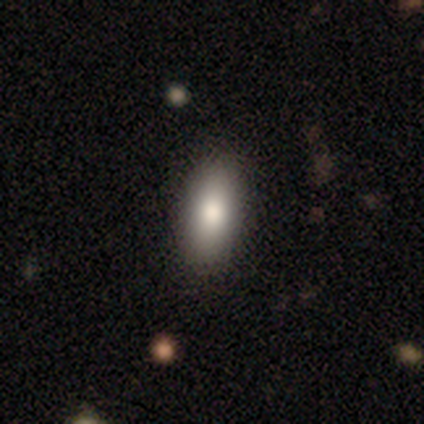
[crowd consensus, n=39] Smooth or featured? 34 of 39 (87%) said smooth. How rounded? 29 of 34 (85%) said in between. Merging? 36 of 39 (92%) said none.